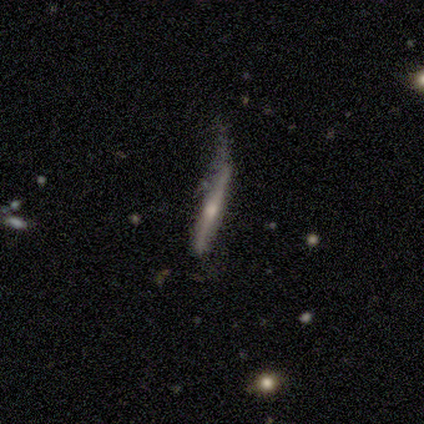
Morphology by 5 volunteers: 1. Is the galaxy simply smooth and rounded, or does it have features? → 80% featured or disk, 20% smooth, 0% star or artifact.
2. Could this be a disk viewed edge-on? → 75% yes, 25% no.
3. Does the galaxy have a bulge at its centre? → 67% none, 33% rounded, 0% boxy.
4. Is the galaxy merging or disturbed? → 40% major disturbance, 20% none, 20% minor disturbance, 20% merger.